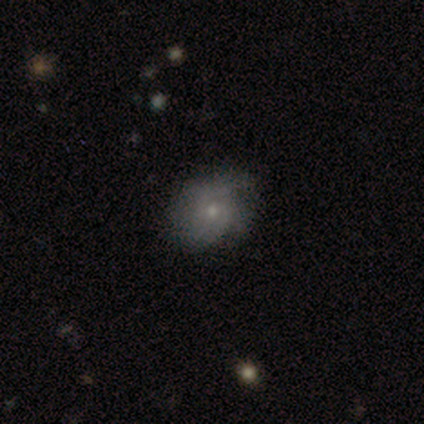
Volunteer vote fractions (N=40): Overall: featured or disk (55%; smooth 40%). Edge-on disk: no (100%). Bar: no (82%). Spiral arms: yes (77%). Spiral arm count: 2 (41%; can't tell 35%). Spiral winding: medium (41%; loose 35%). Bulge size: small (68%). Merging: none (76%).